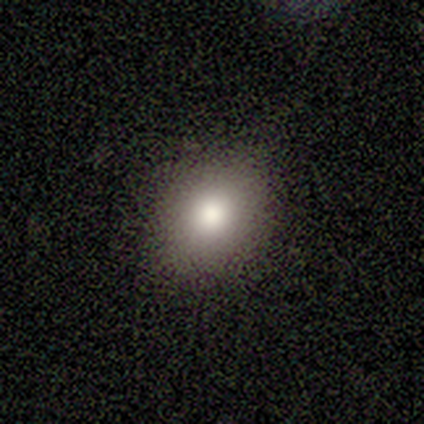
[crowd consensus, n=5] Smooth or featured? 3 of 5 (60%) said smooth. How rounded? 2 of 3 (67%) said in between. Merging? 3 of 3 (100%) said none.